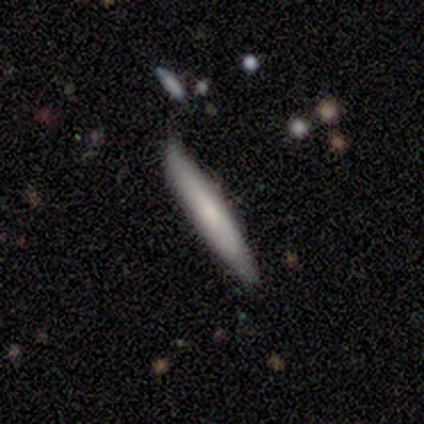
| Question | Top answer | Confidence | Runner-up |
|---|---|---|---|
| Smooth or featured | smooth | 50% | tied: featured or disk (50%) |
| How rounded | cigar-shaped | 100% | — |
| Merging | none | 75% | minor disturbance (25%) |